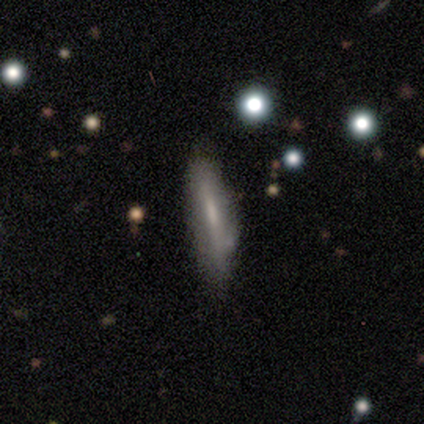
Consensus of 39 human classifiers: smooth 54%, featured or disk 41%, star or artifact 5%. Down the decision tree: how rounded — cigar-shaped (71%); merging — none (32%).